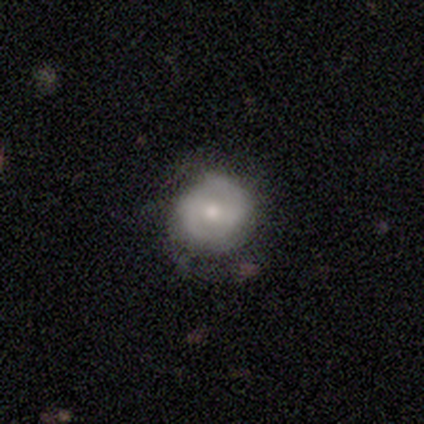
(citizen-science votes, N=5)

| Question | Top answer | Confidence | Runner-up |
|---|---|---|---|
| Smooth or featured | smooth | 60% | featured or disk (40%) |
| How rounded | round | 100% | — |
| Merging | none | 80% | minor disturbance (20%) |